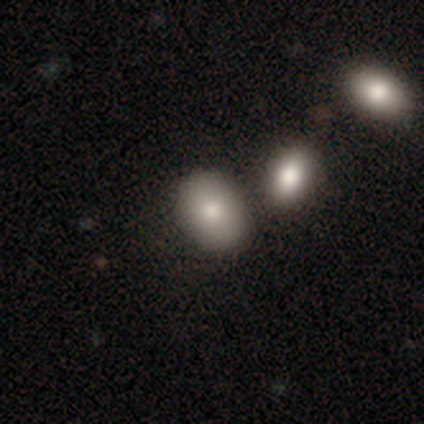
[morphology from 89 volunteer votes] Q: Smooth or featured?
A: smooth (70%); runner-up: star or artifact (17%)
Q: How rounded?
A: in between (81%); runner-up: round (19%)
Q: Merging?
A: none (73%); runner-up: merger (15%)